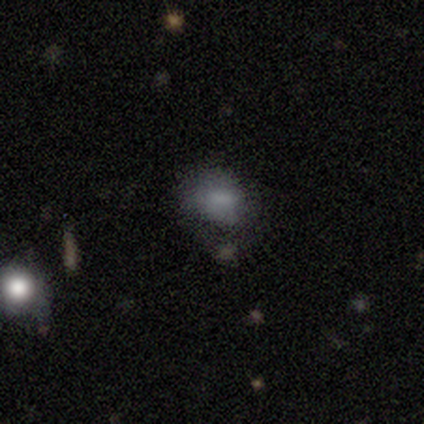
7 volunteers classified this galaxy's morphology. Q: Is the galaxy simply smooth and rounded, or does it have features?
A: smooth — 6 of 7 (86%).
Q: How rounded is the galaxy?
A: round — 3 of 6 (50%, tied with in between).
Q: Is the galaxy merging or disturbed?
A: none — 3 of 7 (43%, tied with minor disturbance).